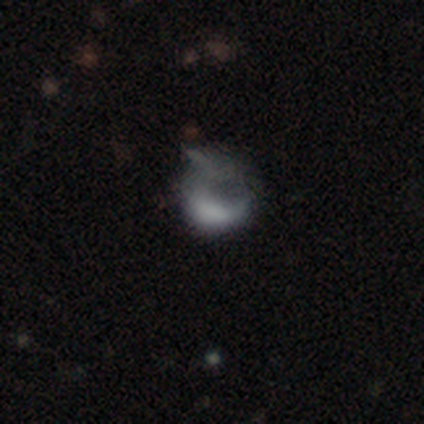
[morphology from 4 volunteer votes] This is possibly a smooth galaxy (50%). How rounded: clearly round (100%). Merging: likely major disturbance (67%).